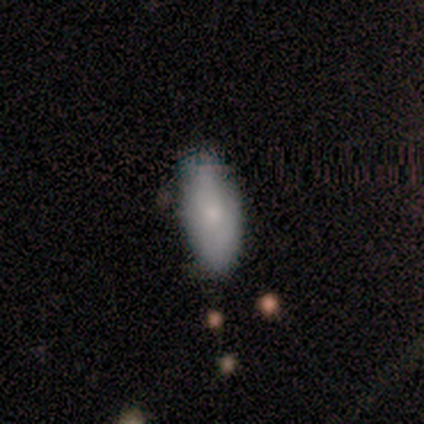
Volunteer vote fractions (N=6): A smooth galaxy with no disk features (83%) that is in between round and cigar-shaped (60%).

Vote fractions:
- Smooth or featured? smooth: 83% / featured or disk: 17% / star or artifact: 0%
- How rounded? in between: 60% / cigar-shaped: 40% / round: 0%
- Merging? none: 83% / major disturbance: 17% / minor disturbance: 0% / merger: 0%